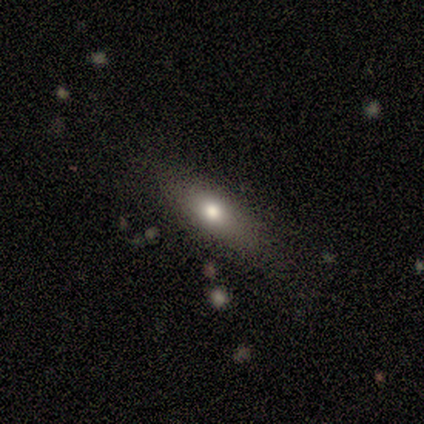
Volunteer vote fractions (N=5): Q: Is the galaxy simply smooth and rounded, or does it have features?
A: smooth — 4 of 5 (80%).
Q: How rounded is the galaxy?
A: cigar-shaped — 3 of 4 (75%).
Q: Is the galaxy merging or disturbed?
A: none — 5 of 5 (100%).